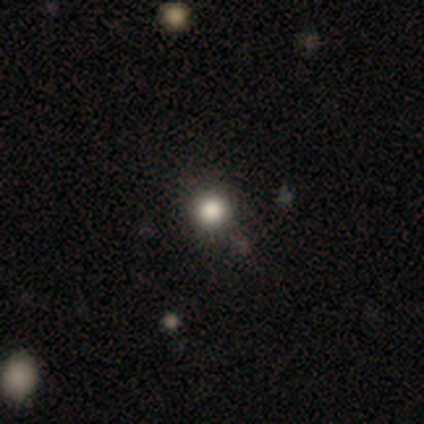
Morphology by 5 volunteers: smooth-or-featured: smooth: 80% | star or artifact: 20% | featured or disk: 0%
  how-rounded: round: 100% | in between: 0% | cigar-shaped: 0%
  merging: none: 75% | minor disturbance: 25% | major disturbance: 0% | merger: 0%